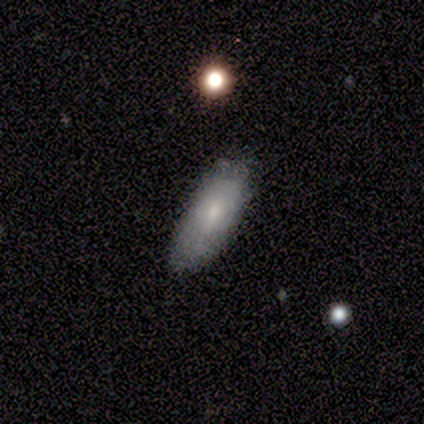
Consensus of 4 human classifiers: Morphology: type=smooth (50%); roundness=in between (100%); merging=none (67%).